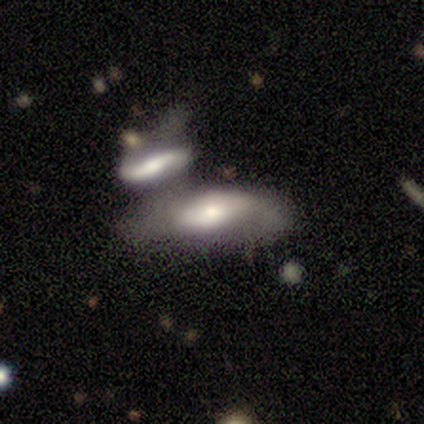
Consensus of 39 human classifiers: This is possibly a featured or disk galaxy (51%). It is clearly not viewed edge-on (80%). Bar: possibly no (50%). Spiral arm pattern: likely no (62%). Central bulge: possibly moderate (56%). Merging: likely merger (62%).